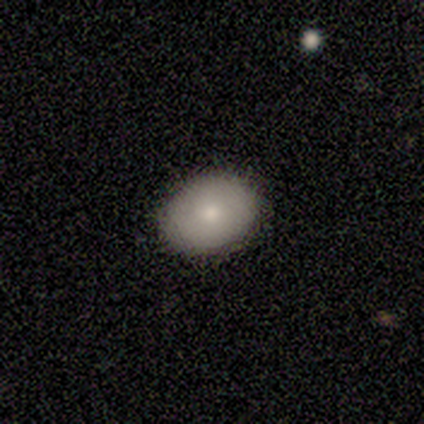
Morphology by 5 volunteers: Smooth or featured? smooth (80%)
How rounded? in between (75%)
Merging? none (80%)